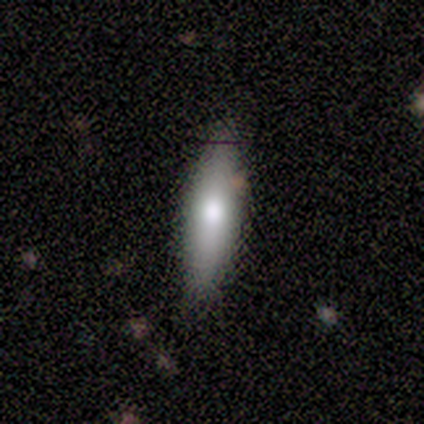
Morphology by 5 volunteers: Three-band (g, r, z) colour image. It shows a smooth galaxy with no disk features (80%) that is in between round and cigar-shaped (50%, tied with cigar-shaped). Merging: none (60%).